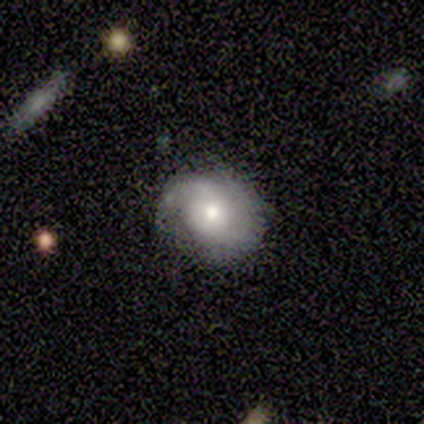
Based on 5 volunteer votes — smooth_or_featured: featured or disk (p=0.80) [alt: star or artifact p=0.20]
disk_edge_on: no (p=1.00)
bar: no (p=1.00)
has_spiral_arms: yes (p=1.00)
spiral_winding: loose (p=0.50) [alt: tight p=0.25]
spiral_arm_count: 2 (p=0.50) [alt: 1 p=0.25]
bulge_size: moderate (p=0.50) [alt: large p=0.25]
merging: none (p=1.00)